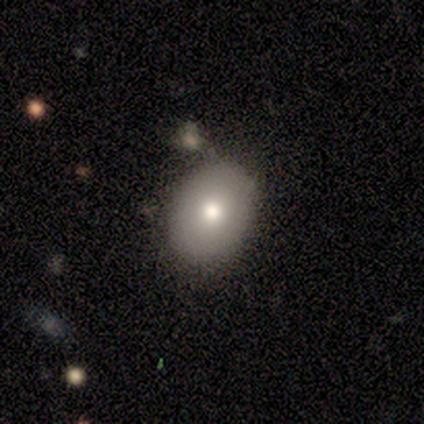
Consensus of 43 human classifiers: smooth_or_featured: smooth (p=0.79) [alt: featured or disk p=0.19]
how_rounded: in between (p=0.71) [alt: round p=0.29]
merging: none (p=0.52) [alt: minor disturbance p=0.29]